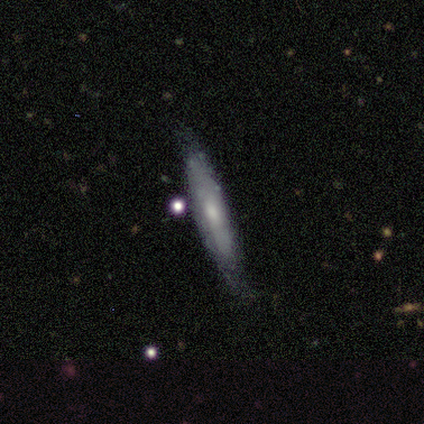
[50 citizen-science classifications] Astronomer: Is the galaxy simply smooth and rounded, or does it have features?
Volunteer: featured or disk — 58% (runner-up: smooth, 34%).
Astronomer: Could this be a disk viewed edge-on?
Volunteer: yes — 66%.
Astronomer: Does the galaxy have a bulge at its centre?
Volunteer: rounded — 58%.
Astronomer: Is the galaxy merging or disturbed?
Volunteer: none — 61%.